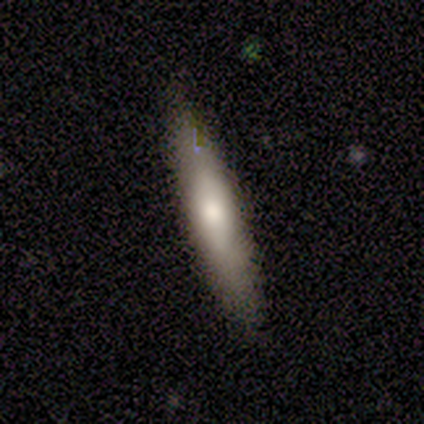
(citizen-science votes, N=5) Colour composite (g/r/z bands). It shows a smooth galaxy with no disk features (60%) that is cigar-shaped (100%). Merging: none (100%).